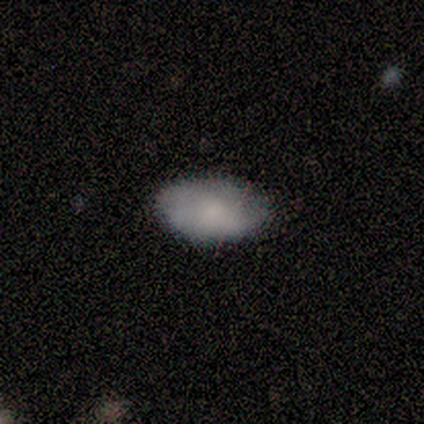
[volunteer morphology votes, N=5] Smooth or featured: smooth — 100%
How rounded: in between — 100%
Merging: none — 80% (minor disturbance — 20%)